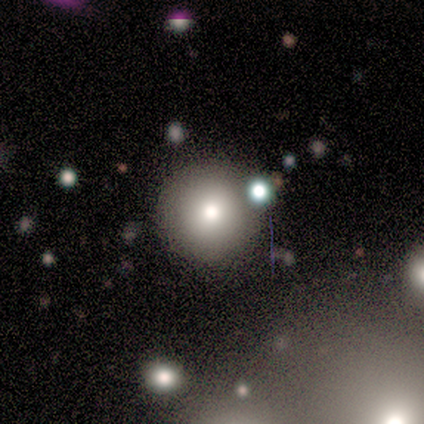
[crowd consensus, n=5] Overall: smooth (100%). How rounded: round (100%). Merging: none (80%).